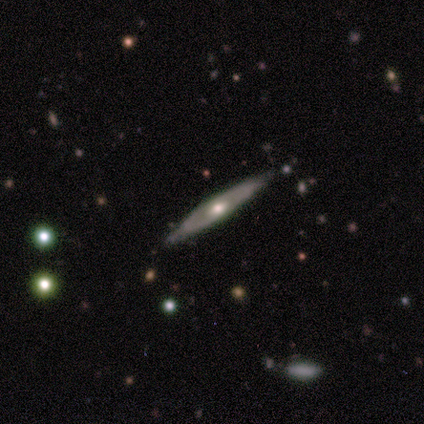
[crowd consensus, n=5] Overall: featured or disk (80%). Edge-on disk: yes (100%). Edge-on bulge: rounded (100%). Merging: none (80%).